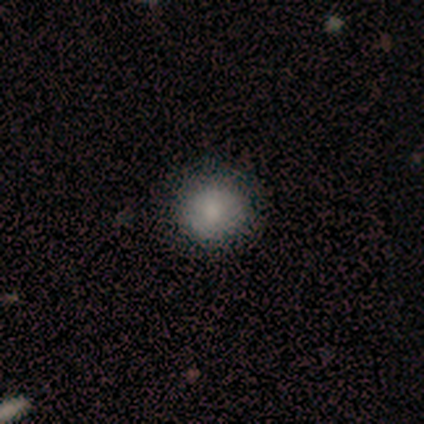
Overall: smooth (100%). How rounded: round (100%). Merging: none (100%).